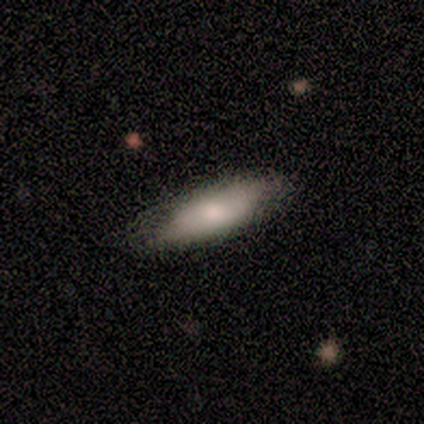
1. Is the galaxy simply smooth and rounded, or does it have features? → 77% smooth, 18% featured or disk, 5% star or artifact.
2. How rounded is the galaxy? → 60% in between, 40% cigar-shaped, 0% round.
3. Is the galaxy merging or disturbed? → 68% none, 32% minor disturbance, 0% major disturbance, 0% merger.